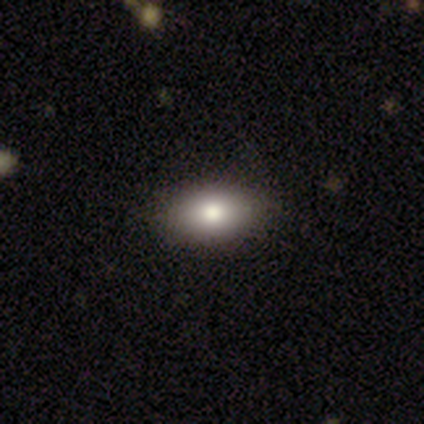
Volunteers were most divided on "how rounded": in between: 86%, round: 14%, cigar-shaped: 0%. More confident: merging — none (100%); smooth or featured — smooth (88%).